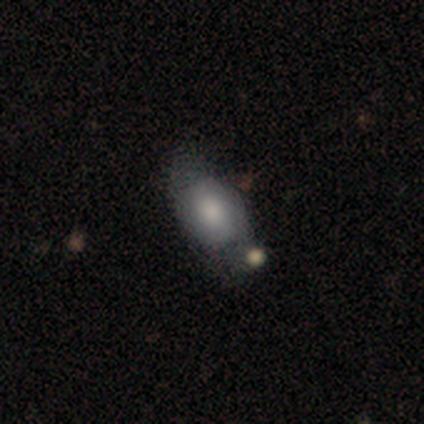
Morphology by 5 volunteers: A smooth galaxy with no disk features (60%) that is in between round and cigar-shaped (67%).

Vote fractions:
- Smooth or featured? smooth: 60% / featured or disk: 40% / star or artifact: 0%
- How rounded? in between: 67% / round: 33% / cigar-shaped: 0%
- Merging? none: 40% / minor disturbance: 20% / major disturbance: 20% / merger: 20%